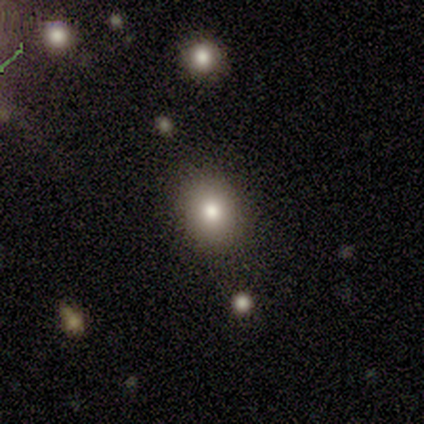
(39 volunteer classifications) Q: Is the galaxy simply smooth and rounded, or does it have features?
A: smooth — 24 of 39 (62%).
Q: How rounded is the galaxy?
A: round — 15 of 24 (62%).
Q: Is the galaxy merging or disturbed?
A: none — 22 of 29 (76%).